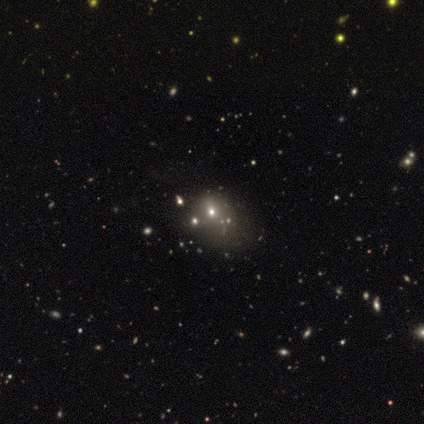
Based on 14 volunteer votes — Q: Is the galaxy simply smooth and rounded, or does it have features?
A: smooth — 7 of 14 (50%).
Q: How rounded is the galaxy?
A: round — 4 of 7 (57%).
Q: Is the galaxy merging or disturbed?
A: none — 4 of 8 (50%, tied with minor disturbance).